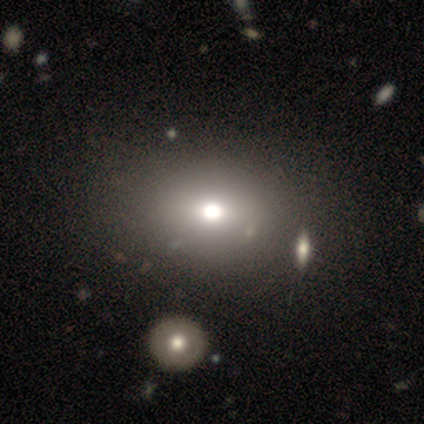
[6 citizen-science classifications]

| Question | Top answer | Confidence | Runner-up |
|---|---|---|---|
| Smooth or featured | smooth | 50% | tied: star or artifact (50%) |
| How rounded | in between | 67% | round (33%) |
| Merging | none | 67% | major disturbance (33%) |